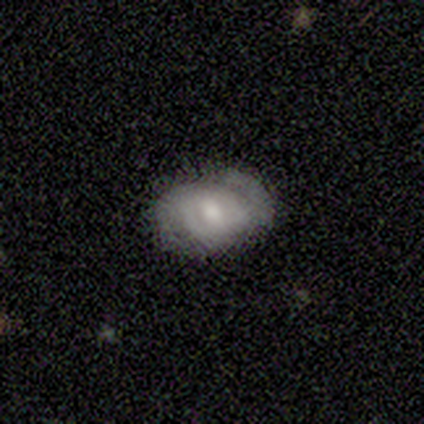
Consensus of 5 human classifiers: This appears to be a featured or disk galaxy (40%, tied with star or artifact) with a weak bar (100%), 2 (50%, tied with can't tell) tight (100%) spiral arms (100%) and a moderate central bulge (50%, tied with small). Merging: none (67%).